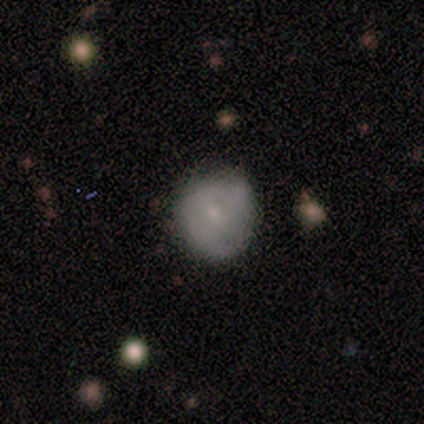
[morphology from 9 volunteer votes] Overall: smooth (56%; featured or disk 33%). How rounded: round (80%). Merging: none (88%).